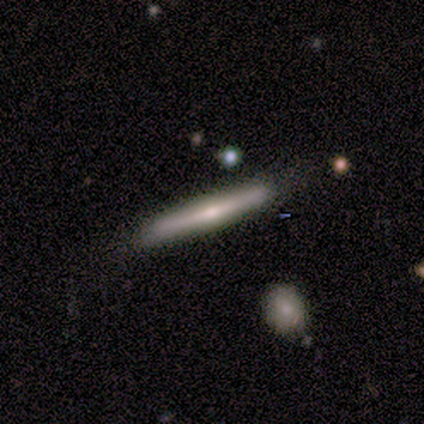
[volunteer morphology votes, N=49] Volunteers were most divided on "smooth or featured": featured or disk: 59%, smooth: 35%, star or artifact: 6%. More confident: edge-on disk — yes (97%); merging — none (91%); edge-on bulge — rounded (68%).